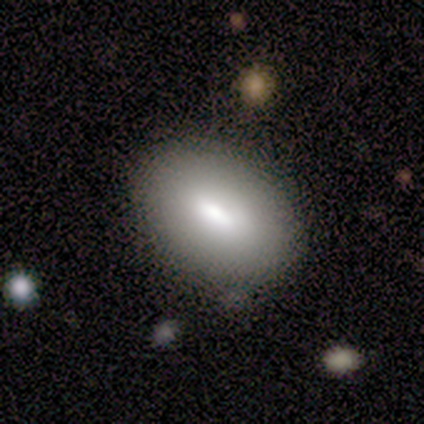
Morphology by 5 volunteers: Smooth or featured? smooth (80%)
How rounded? in between (100%)
Merging? none (100%)